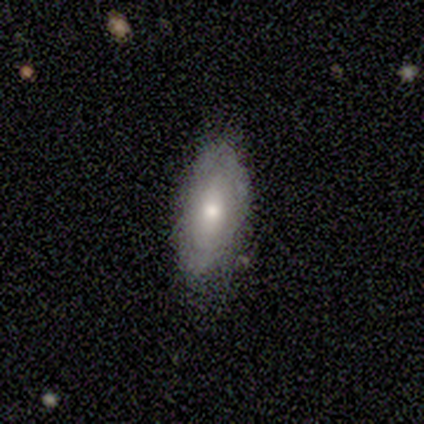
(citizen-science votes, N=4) smooth 50% (tied), star or artifact 50% (tied), featured or disk 0%. Down the decision tree: how rounded — in between (100%); merging — none (100%).